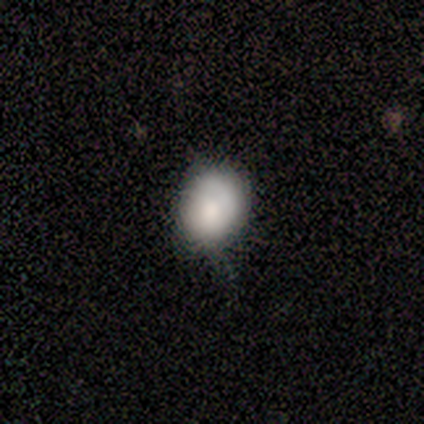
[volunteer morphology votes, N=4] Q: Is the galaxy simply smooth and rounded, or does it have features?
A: smooth — 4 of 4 (100%).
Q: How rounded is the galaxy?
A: in between — 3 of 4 (75%).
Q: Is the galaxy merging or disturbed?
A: none — 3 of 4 (75%).